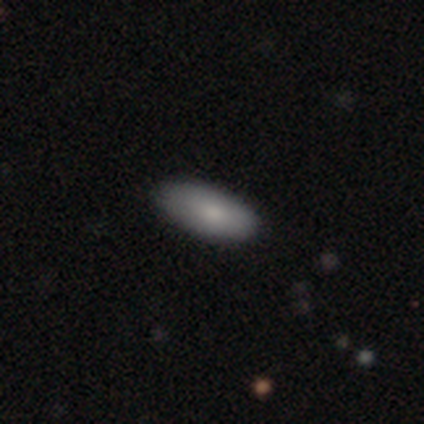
This appears to be a smooth galaxy with no disk features (100%) that is in between round and cigar-shaped (100%). Merging: none (100%).